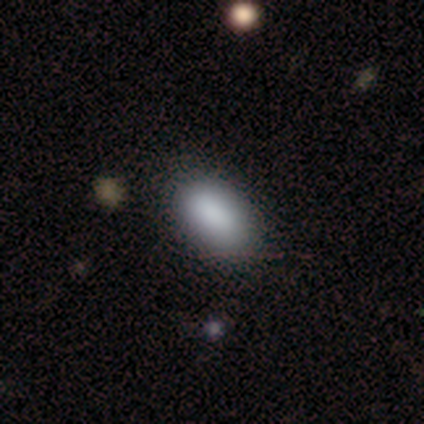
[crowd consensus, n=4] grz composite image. It shows a smooth galaxy with no disk features (75%) that is in between round and cigar-shaped (100%). Merging: none (67%).